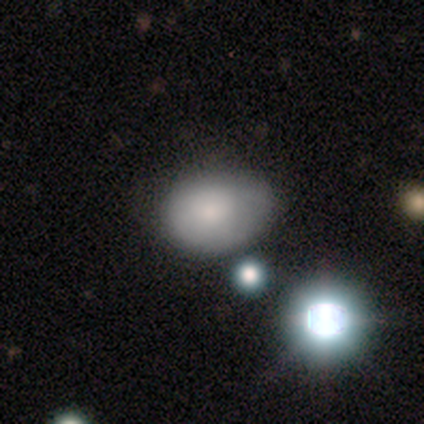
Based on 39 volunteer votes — Q: Smooth or featured?
A: smooth (85%); runner-up: star or artifact (10%)
Q: How rounded?
A: in between (82%); runner-up: round (18%)
Q: Merging?
A: none (57%); runner-up: minor disturbance (40%)